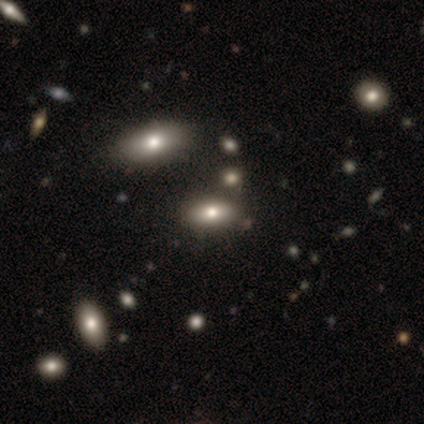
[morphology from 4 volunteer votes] Consensus on every question: smooth or featured — smooth (100%); how rounded — in between (100%); merging — none (100%).